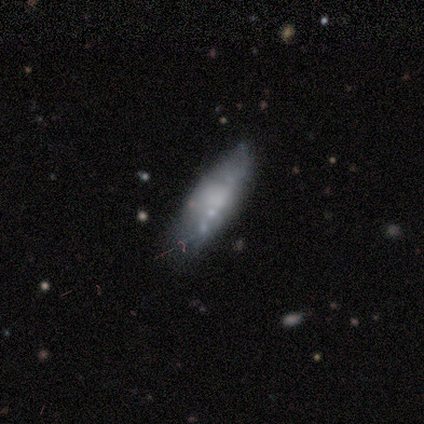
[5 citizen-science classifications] This is clearly a featured or disk galaxy (80%). It is clearly not viewed edge-on (100%). Bar: likely no (75%). Spiral arm pattern: clearly no (100%). Central bulge: possibly none (50%). Merging: clearly none (80%).